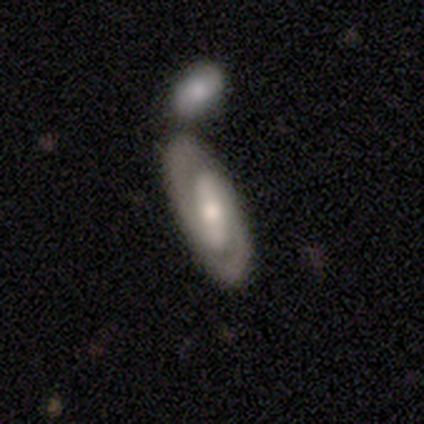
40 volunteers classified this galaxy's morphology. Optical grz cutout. It shows a featured or disk galaxy (80%) with a strong bar (71%), 2 (93%) tight (50%) spiral arms (100%) and a moderate central bulge (68%). Merging: none (58%).